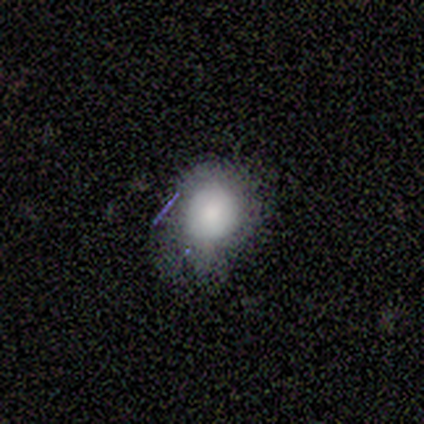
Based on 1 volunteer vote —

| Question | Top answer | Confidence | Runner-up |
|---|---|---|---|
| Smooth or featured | smooth | 100% | — |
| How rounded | in between | 100% | — |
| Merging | none | 100% | — |